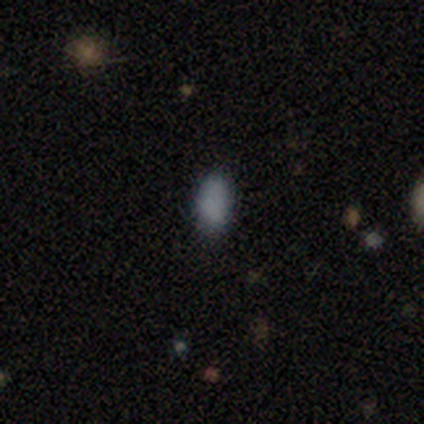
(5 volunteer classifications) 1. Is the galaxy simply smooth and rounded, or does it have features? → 100% smooth, 0% featured or disk, 0% star or artifact.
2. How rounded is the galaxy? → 100% in between, 0% round, 0% cigar-shaped.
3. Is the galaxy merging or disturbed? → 80% none, 20% minor disturbance, 0% major disturbance, 0% merger.